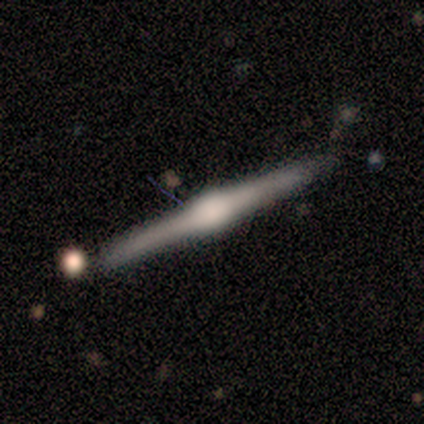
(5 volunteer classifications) smooth_or_featured: featured or disk (p=1.00)
disk_edge_on: yes (p=1.00)
edge_on_bulge: rounded (p=1.00)
merging: none (p=1.00)